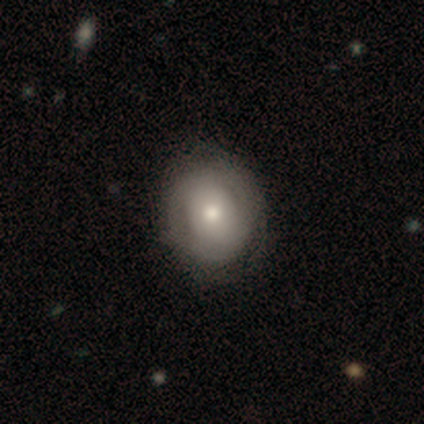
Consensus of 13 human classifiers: This appears to be a featured or disk galaxy (54%) with no bar (100%), no spiral arms (57%) and a moderate central bulge (43%). Merging: none (75%).